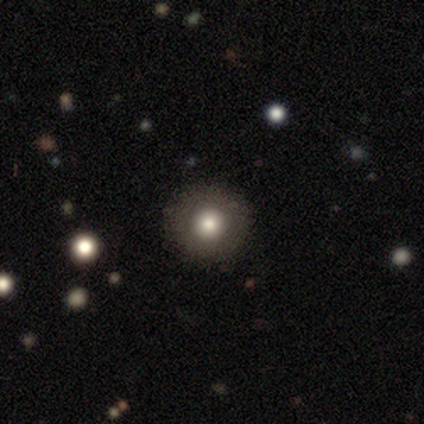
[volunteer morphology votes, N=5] This appears to be a smooth galaxy with no disk features (100%) that is round (100%). Merging: none (100%).